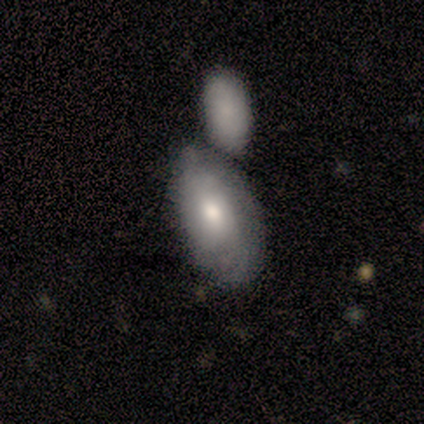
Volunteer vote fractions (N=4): Q: Smooth or featured?
A: smooth (75%); runner-up: featured or disk (25%)
Q: How rounded?
A: in between (100%)
Q: Merging?
A: merger (50%); runner-up: none (25%)